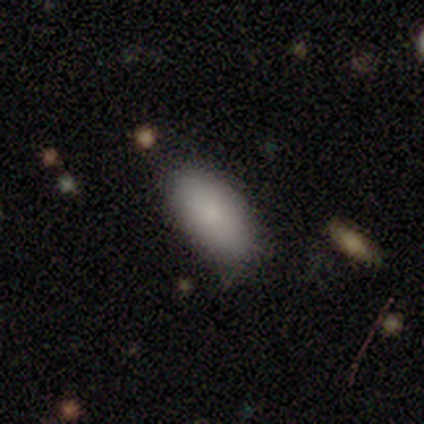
smooth_or_featured: smooth (p=1.00)
how_rounded: in between (p=0.78) [alt: cigar-shaped p=0.22]
merging: none (p=0.78) [alt: minor disturbance p=0.22]